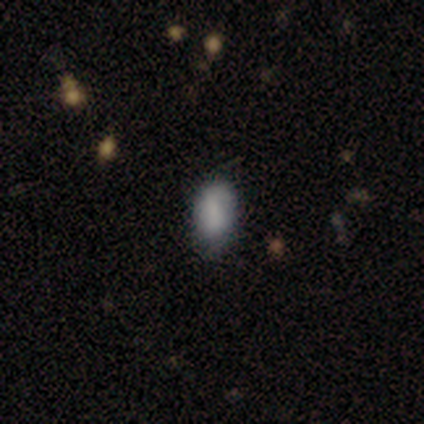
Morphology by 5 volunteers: Smooth or featured?
  - smooth: 100% *
  - featured or disk: 0%
  - star or artifact: 0%
How rounded?
  - in between: 100% *
  - round: 0%
  - cigar-shaped: 0%
Merging?
  - none: 60% *
  - minor disturbance: 20%
  - major disturbance: 20%
  - merger: 0%